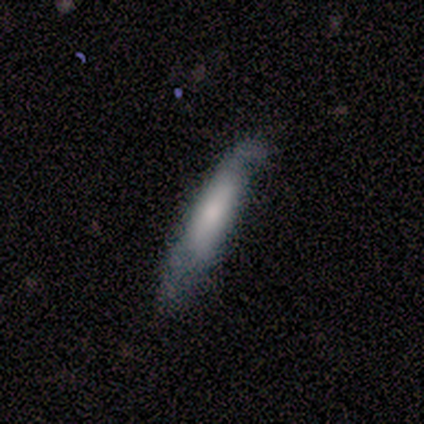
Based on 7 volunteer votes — A smooth galaxy with no disk features (71%) that is cigar-shaped (100%).

Vote fractions:
- Smooth or featured? smooth: 71% / featured or disk: 14% / star or artifact: 14%
- How rounded? cigar-shaped: 100% / round: 0% / in between: 0%
- Merging? none: 50% (tied) / minor disturbance: 50% (tied) / major disturbance: 0% / merger: 0%